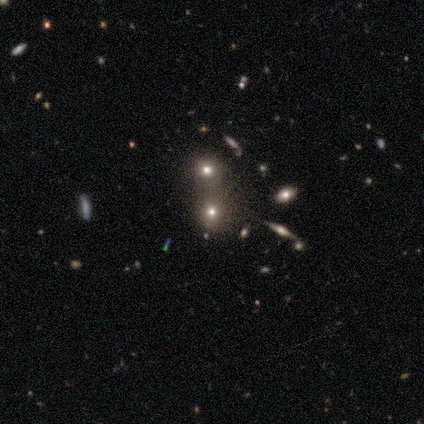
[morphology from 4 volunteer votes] This is likely a smooth galaxy (75%). How rounded: likely in between (67%). Merging: clearly merger (100%).